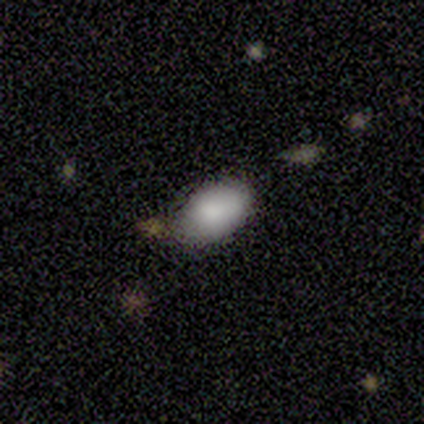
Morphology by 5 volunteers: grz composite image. It shows a smooth galaxy with no disk features (100%) that is in between round and cigar-shaped (60%). Merging: none (60%).